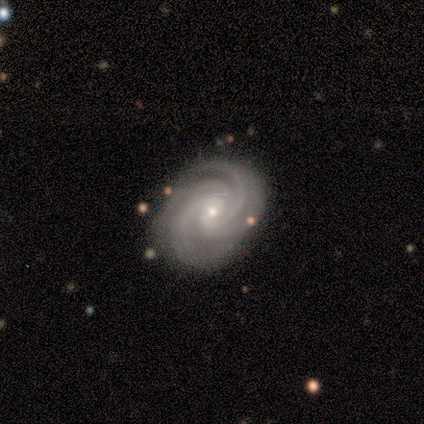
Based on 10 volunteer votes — Morphology: type=featured or disk (100%); edge-on=no (100%); bar=no (50%); spiral arms=yes (100%); winding=tight (90%); arm count=4 (50%); bulge=moderate (60%); merging=none (90%).